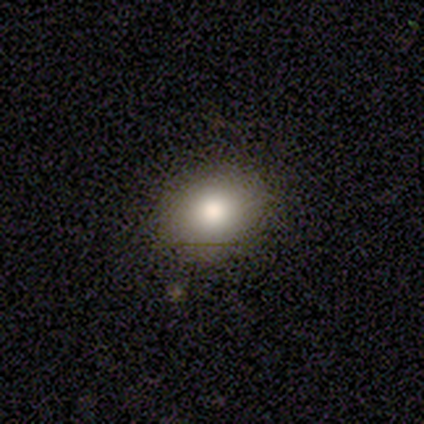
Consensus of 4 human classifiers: Overall: smooth (100%). How rounded: round (50%, tied with in between). Merging: none (100%).